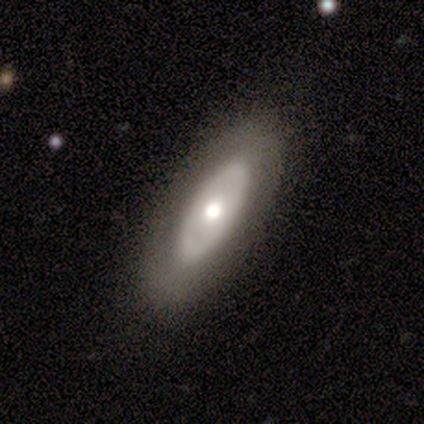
This appears to be a smooth galaxy with no disk features (60%) that is in between round and cigar-shaped (100%). Merging: none (100%).